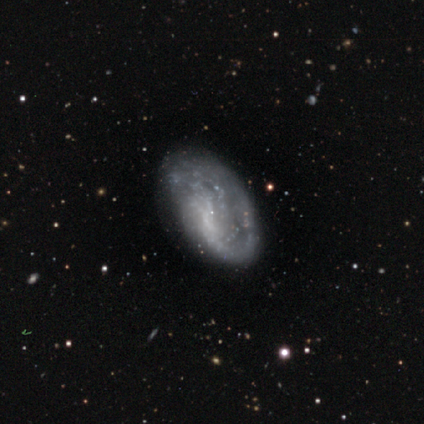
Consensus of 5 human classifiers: Overall: featured or disk (80%). Edge-on disk: no (100%). Bar: no (100%). Spiral arms: yes (50%, tied with no). Spiral arm count: 1 (50%, tied with 2). Spiral winding: medium (50%, tied with loose). Bulge size: small (50%, tied with none). Merging: minor disturbance (60%; none 40%).